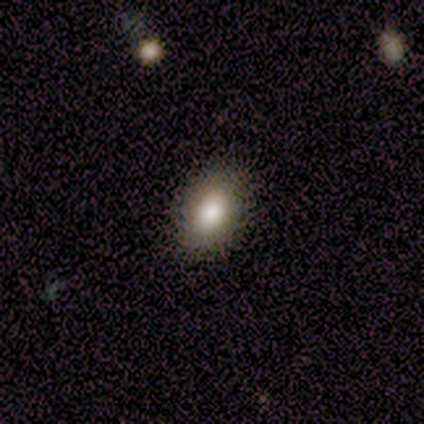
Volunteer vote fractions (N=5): This is clearly a smooth galaxy (80%). How rounded: possibly in between (50%). Merging: clearly none (100%).